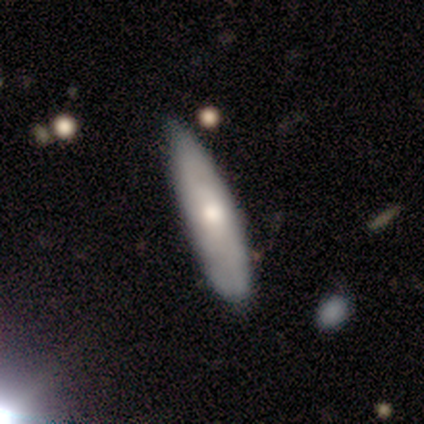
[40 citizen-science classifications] Morphology: type=smooth (62%); roundness=cigar-shaped (80%); merging=none (70%).